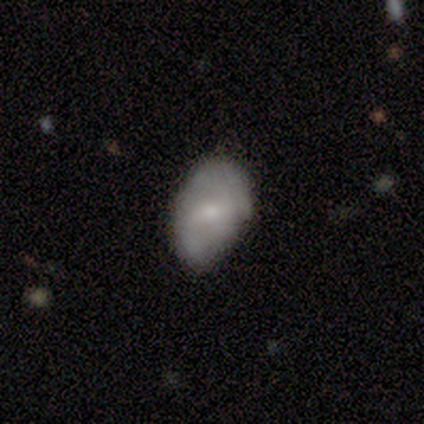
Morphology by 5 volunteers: Overall: smooth (60%; featured or disk 40%). How rounded: in between (100%). Merging: none (60%; minor disturbance 20%).